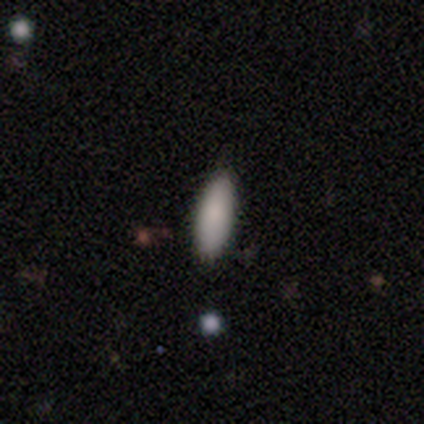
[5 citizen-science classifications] Volunteers were most divided on "how rounded": in between: 75%, cigar-shaped: 25%, round: 0%. More confident: merging — none (100%); smooth or featured — smooth (80%).